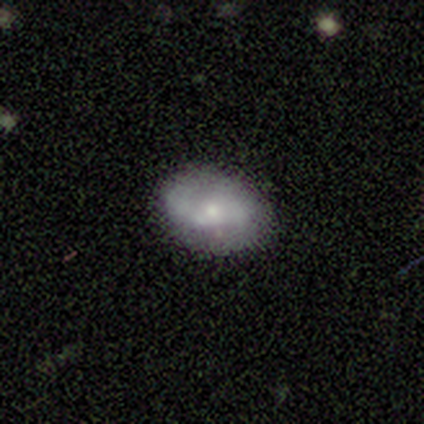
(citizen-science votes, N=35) This appears to be a featured or disk galaxy (71%) with no bar (73%), 2 (72%) loose (50%) spiral arms (82%) and a small central bulge (77%). Merging: none (88%).